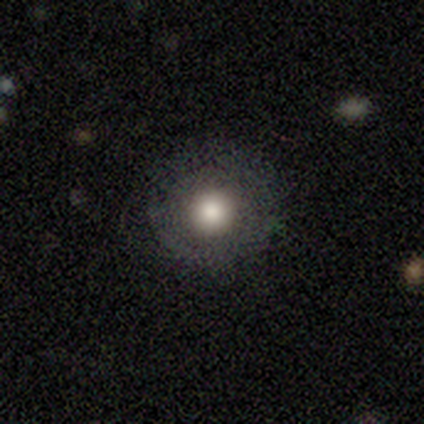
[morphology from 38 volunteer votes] smooth-or-featured: smooth: 61% | featured or disk: 26% | star or artifact: 13%
  how-rounded: round: 100% | in between: 0% | cigar-shaped: 0%
  merging: none: 88% | major disturbance: 9% | minor disturbance: 3% | merger: 0%